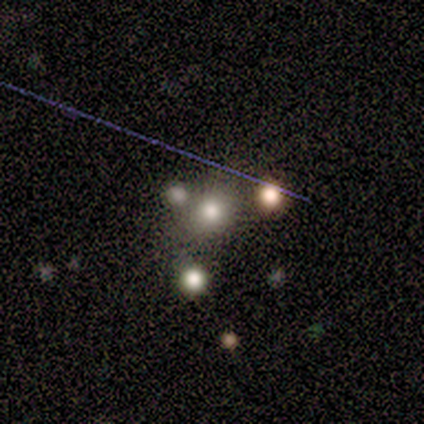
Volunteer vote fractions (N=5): Morphology: type=smooth (40%, tied with star or artifact); roundness=round (100%); merging=none (100%).